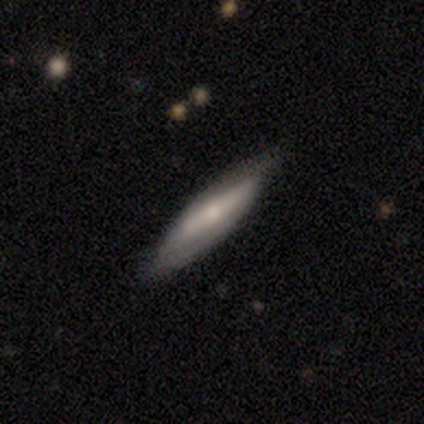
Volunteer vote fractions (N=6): Q: Smooth or featured?
A: smooth (50%); tied with: featured or disk (50%)
Q: How rounded?
A: cigar-shaped (67%); runner-up: in between (33%)
Q: Merging?
A: none (83%); runner-up: major disturbance (17%)